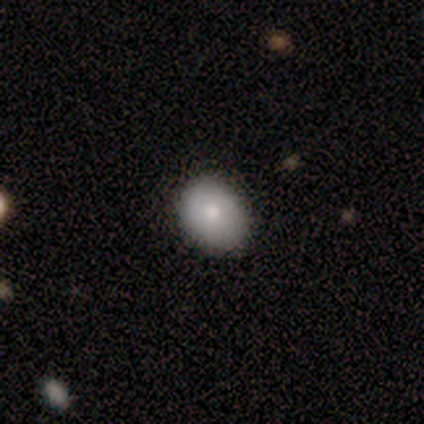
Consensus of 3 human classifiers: Smooth or featured?
  - smooth: 100% *
  - featured or disk: 0%
  - star or artifact: 0%
How rounded?
  - round: 67% *
  - in between: 33%
  - cigar-shaped: 0%
Merging?
  - none: 100% *
  - minor disturbance: 0%
  - major disturbance: 0%
  - merger: 0%